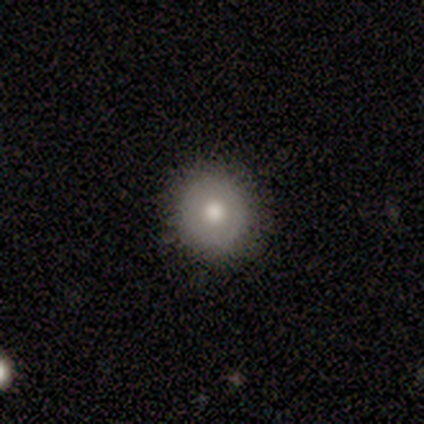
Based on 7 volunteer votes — Smooth or featured? 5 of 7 (71%) said smooth. How rounded? 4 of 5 (80%) said round. Merging? 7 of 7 (100%) said none.